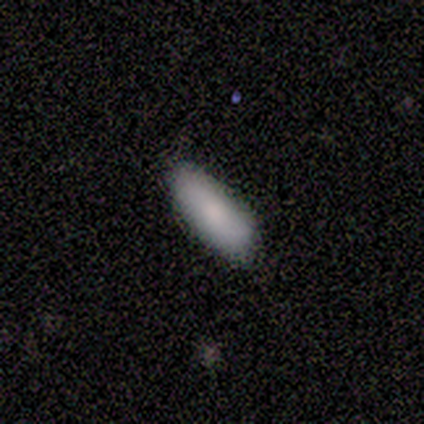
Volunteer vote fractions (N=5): Smooth or featured: smooth — 100%
How rounded: in between — 100%
Merging: none — 80% (minor disturbance — 20%)